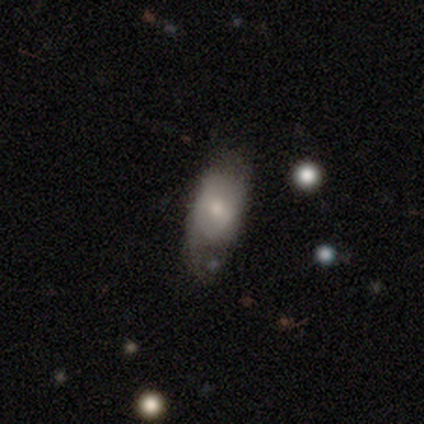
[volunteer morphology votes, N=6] Q: Smooth or featured?
A: featured or disk (67%); runner-up: smooth (33%)
Q: Edge-on disk?
A: no (100%)
Q: Bar?
A: no (50%); runner-up: strong (25%)
Q: Spiral arms?
A: yes (50%); tied with: no (50%)
Q: Spiral winding?
A: medium (100%)
Q: Spiral arm count?
A: can't tell (100%)
Q: Bulge size?
A: moderate (50%); runner-up: small (25%)
Q: Merging?
A: none (67%); runner-up: minor disturbance (17%)